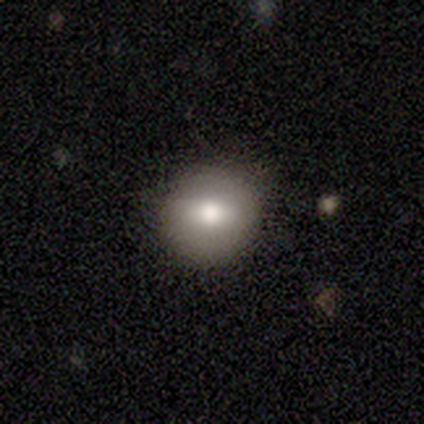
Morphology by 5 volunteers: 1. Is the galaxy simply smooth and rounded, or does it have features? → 80% smooth, 20% star or artifact, 0% featured or disk.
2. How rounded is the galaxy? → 100% round, 0% in between, 0% cigar-shaped.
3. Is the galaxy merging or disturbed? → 100% none, 0% minor disturbance, 0% major disturbance, 0% merger.